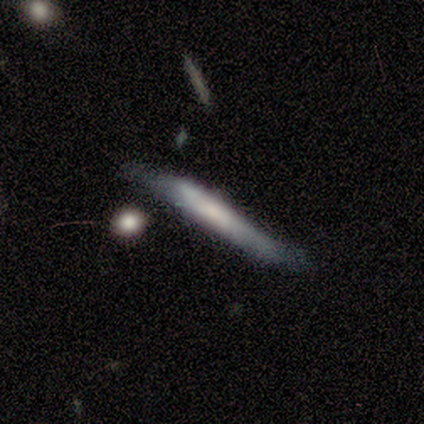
smooth_or_featured: smooth (p=0.80) [alt: featured or disk p=0.20]
how_rounded: cigar-shaped (p=1.00)
merging: none (p=0.60) [alt: minor disturbance p=0.40]